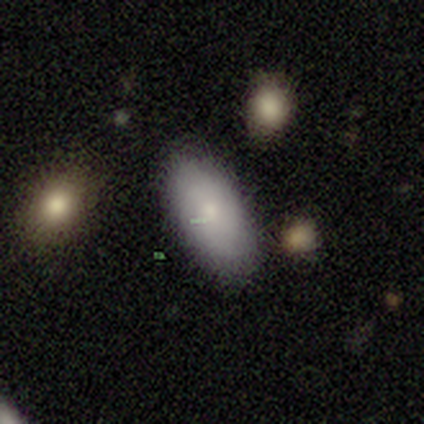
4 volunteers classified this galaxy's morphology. Volunteers were most divided on "how rounded": in between: 75%, cigar-shaped: 25%, round: 0%. More confident: smooth or featured — smooth (100%); merging — none (100%).